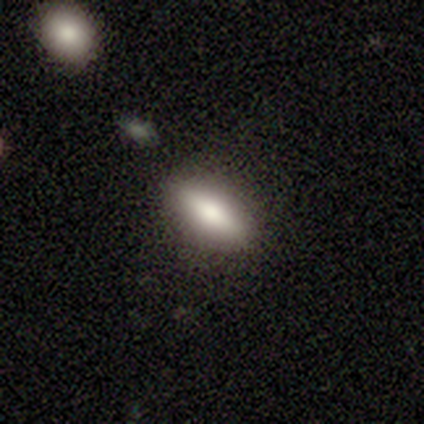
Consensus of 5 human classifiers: This is clearly a smooth galaxy (100%). How rounded: clearly in between (80%). Merging: likely none (60%).